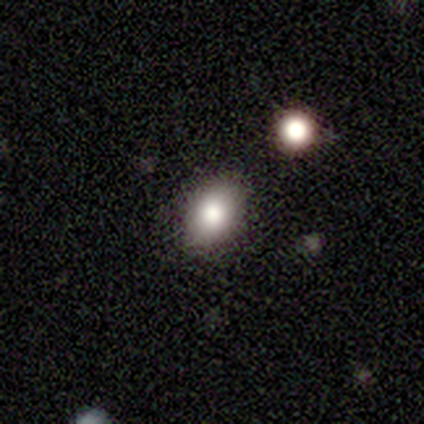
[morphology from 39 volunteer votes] Overall: smooth (72%). How rounded: in between (79%). Merging: none (87%).